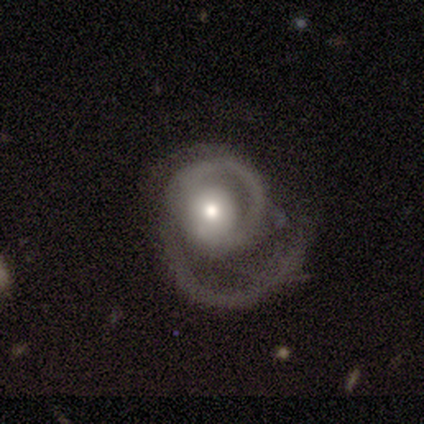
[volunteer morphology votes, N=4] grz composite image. It shows a featured or disk galaxy (100%) with no bar (75%), 2 (67%) medium (100%) spiral arms (75%) and a moderate central bulge (75%). Merging: none (50%, tied with major disturbance).